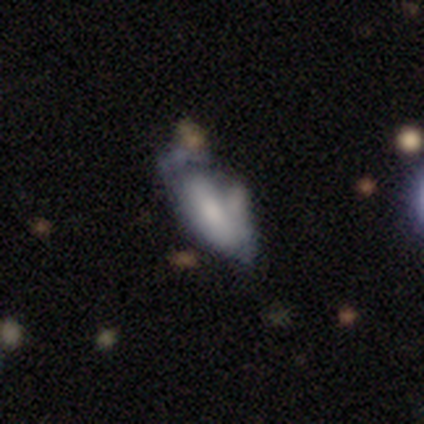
Smooth or featured? smooth (45%, tied with featured or disk)
How rounded? in between (88%)
Merging? major disturbance (35%)